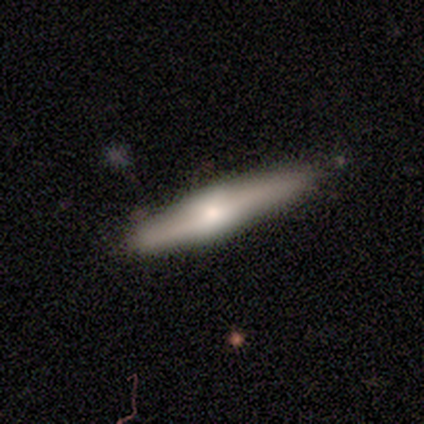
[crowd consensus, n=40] Smooth or featured? 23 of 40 (57%) said featured or disk. Edge-on disk? 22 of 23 (96%) said yes. Edge-on bulge? 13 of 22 (59%) said boxy. Merging? 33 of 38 (87%) said none.